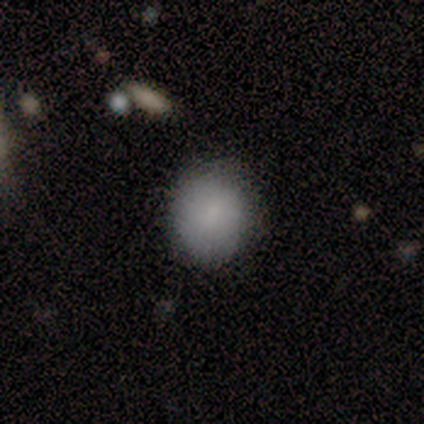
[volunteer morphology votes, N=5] Volunteers were most divided on "how rounded": round: 67%, in between: 33%, cigar-shaped: 0%. More confident: merging — none (100%); smooth or featured — smooth (60%).